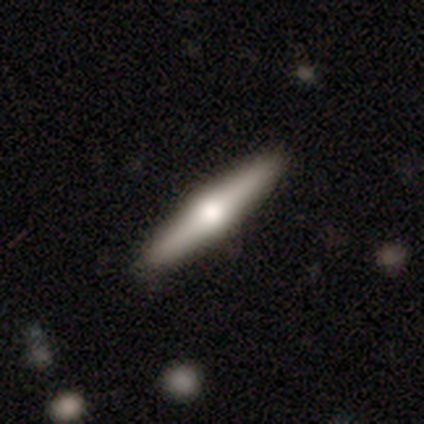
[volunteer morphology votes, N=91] Smooth or featured: featured or disk — 58% (smooth — 36%)
Edge-on disk: yes — 94% (no — 6%)
Edge-on bulge: rounded — 92% (none — 8%)
Merging: none — 90% (minor disturbance — 8%)